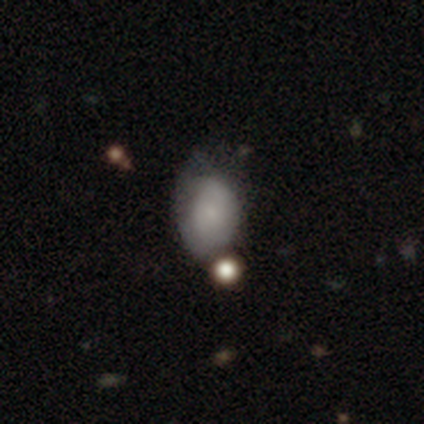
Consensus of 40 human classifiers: Smooth or featured? 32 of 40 (80%) said smooth. How rounded? 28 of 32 (88%) said in between. Merging? 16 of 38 (42%) said none.